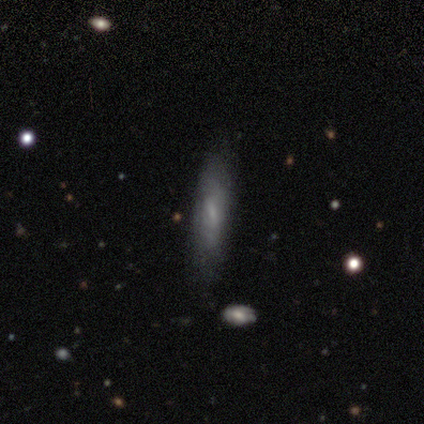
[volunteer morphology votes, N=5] type=smooth (80%); roundness=cigar-shaped (75%); merging=none (80%).